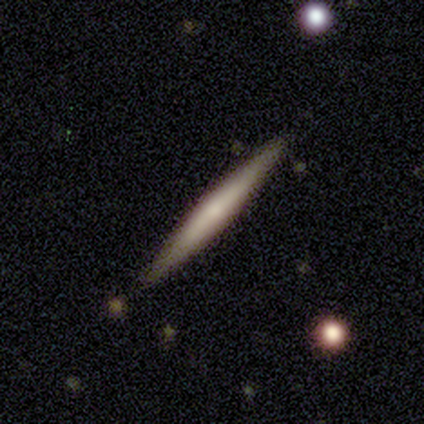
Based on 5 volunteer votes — Smooth or featured?
  - featured or disk: 60% *
  - smooth: 20%
  - star or artifact: 20%
Edge-on disk?
  - yes: 100% *
  - no: 0%
Edge-on bulge?
  - none: 67% *
  - rounded: 33%
  - boxy: 0%
Merging?
  - none: 100% *
  - minor disturbance: 0%
  - major disturbance: 0%
  - merger: 0%